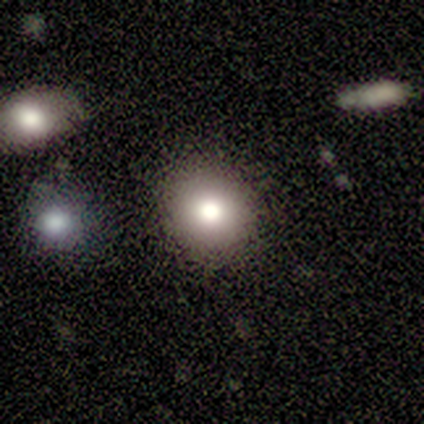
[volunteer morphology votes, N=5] This appears to be a smooth galaxy with no disk features (100%) that is round (100%). Merging: none (100%).